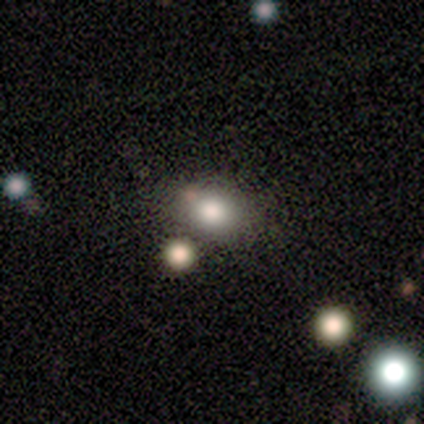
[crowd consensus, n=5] Volunteers were most divided on "merging" (2-way tie): minor disturbance: 40%, merger: 40%, none: 20%, major disturbance: 0%. More confident: how rounded — in between (67%); smooth or featured — smooth (60%).